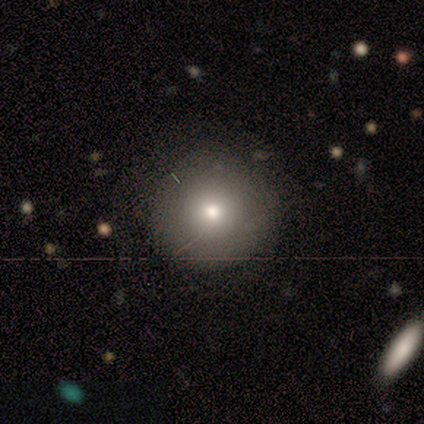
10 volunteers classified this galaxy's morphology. Smooth or featured? 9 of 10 (90%) said smooth. How rounded? 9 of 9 (100%) said round. Merging? 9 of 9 (100%) said none.